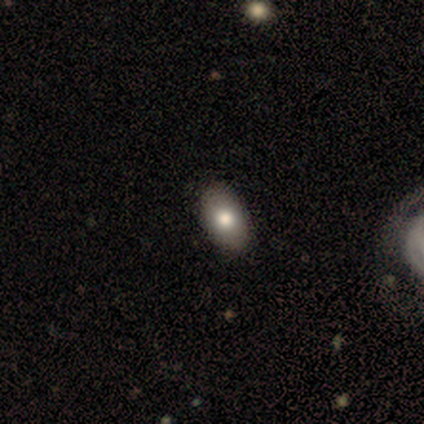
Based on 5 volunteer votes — A smooth galaxy with no disk features (60%) that is in between round and cigar-shaped (100%).

Vote fractions:
- Smooth or featured? smooth: 60% / featured or disk: 40% / star or artifact: 0%
- How rounded? in between: 100% / round: 0% / cigar-shaped: 0%
- Merging? none: 80% / major disturbance: 20% / minor disturbance: 0% / merger: 0%